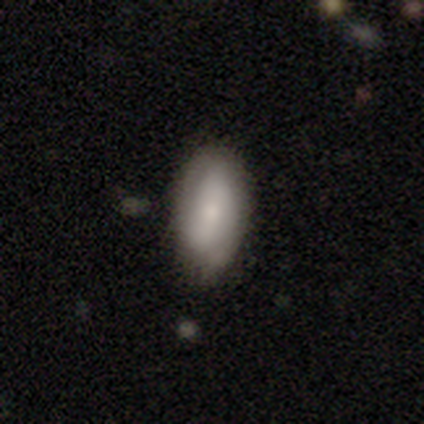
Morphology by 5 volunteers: Q: Smooth or featured?
A: smooth (60%); runner-up: featured or disk (40%)
Q: How rounded?
A: in between (100%)
Q: Merging?
A: none (60%); runner-up: minor disturbance (40%)